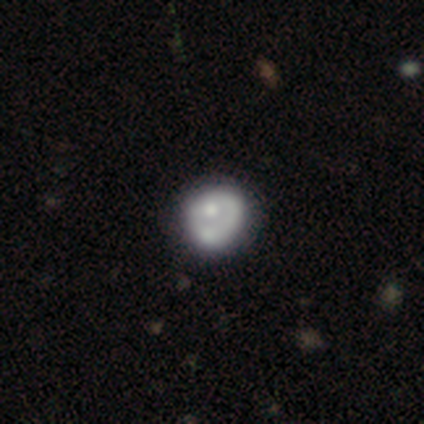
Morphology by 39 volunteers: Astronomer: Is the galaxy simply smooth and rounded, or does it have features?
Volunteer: featured or disk — 72%.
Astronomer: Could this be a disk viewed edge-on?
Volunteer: no — 96%.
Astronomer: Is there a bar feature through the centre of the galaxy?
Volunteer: no — 96%.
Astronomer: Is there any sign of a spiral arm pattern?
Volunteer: no — 63%.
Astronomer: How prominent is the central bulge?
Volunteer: moderate — 48% (runner-up: small, 30%).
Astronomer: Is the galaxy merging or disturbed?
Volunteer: none — 47%.